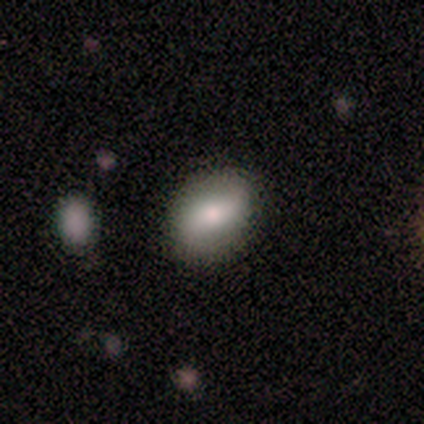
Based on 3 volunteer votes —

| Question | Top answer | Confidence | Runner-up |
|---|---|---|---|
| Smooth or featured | smooth | 67% | featured or disk (33%) |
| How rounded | round | 50% | tied: in between (50%) |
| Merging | none | 67% | major disturbance (33%) |